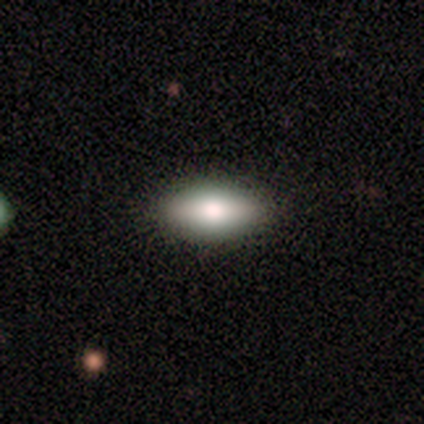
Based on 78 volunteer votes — Smooth or featured: smooth — 69% (featured or disk — 22%)
How rounded: in between — 100%
Merging: none — 52% (minor disturbance — 4%)